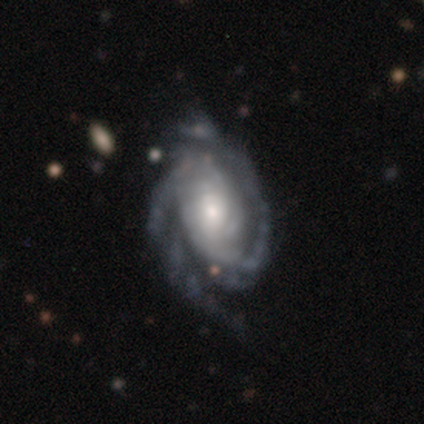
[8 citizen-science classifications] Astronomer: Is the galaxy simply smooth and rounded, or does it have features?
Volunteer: featured or disk — 88%.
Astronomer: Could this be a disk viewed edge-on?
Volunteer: no — 100%.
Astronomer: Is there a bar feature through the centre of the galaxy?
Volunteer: no — 71%.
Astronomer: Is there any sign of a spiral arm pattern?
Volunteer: yes — 100%.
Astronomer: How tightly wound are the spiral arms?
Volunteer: tight — 71%.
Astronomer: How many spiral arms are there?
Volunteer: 2 — 86%.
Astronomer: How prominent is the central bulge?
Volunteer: small — 57%.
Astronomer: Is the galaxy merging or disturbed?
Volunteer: none — 50% (runner-up: minor disturbance, 38%).